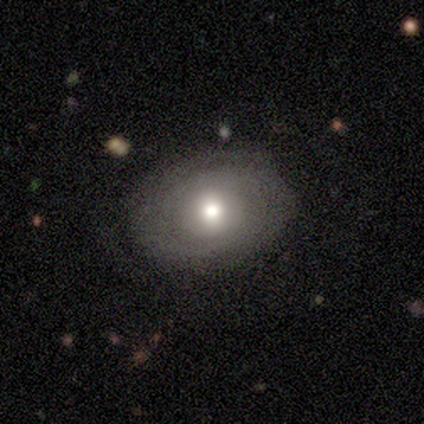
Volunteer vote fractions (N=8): Overall: smooth (75%). How rounded: round (50%, tied with in between). Merging: none (100%).